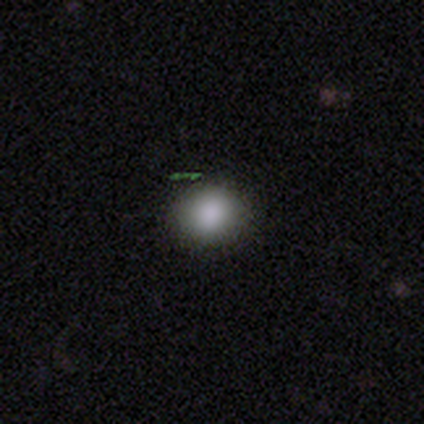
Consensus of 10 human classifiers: A smooth galaxy with no disk features (80%) that is round (75%).

Vote fractions:
- Smooth or featured? smooth: 80% / featured or disk: 10% / star or artifact: 10%
- How rounded? round: 75% / in between: 12% / cigar-shaped: 12%
- Merging? none: 89% / minor disturbance: 11% / major disturbance: 0% / merger: 0%